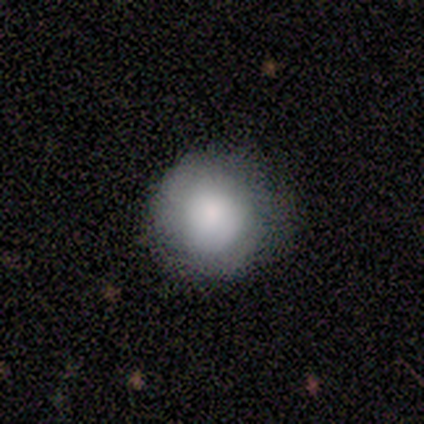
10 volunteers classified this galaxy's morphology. Volunteers were most divided on "smooth or featured": smooth: 60%, featured or disk: 30%, star or artifact: 10%. More confident: how rounded — round (100%); merging — none (100%).